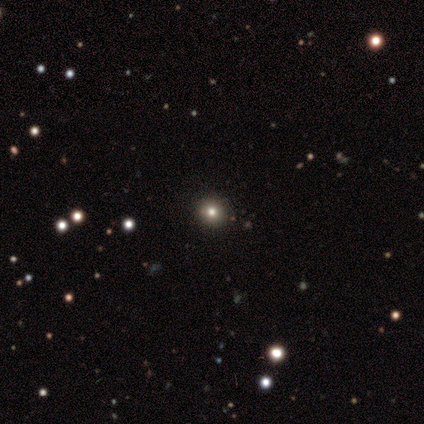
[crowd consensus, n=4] A smooth galaxy with no disk features (50%) that is round (100%).

Vote fractions:
- Smooth or featured? smooth: 50% / featured or disk: 25% / star or artifact: 25%
- How rounded? round: 100% / in between: 0% / cigar-shaped: 0%
- Merging? none: 100% / minor disturbance: 0% / major disturbance: 0% / merger: 0%